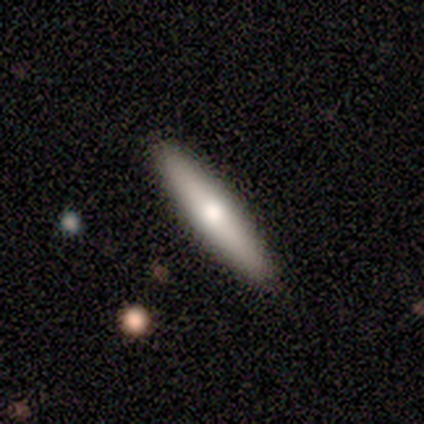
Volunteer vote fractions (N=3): A smooth galaxy with no disk features (67%) that is in between round and cigar-shaped (50%, tied with cigar-shaped).

Vote fractions:
- Smooth or featured? smooth: 67% / featured or disk: 33% / star or artifact: 0%
- How rounded? in between: 50% (tied) / cigar-shaped: 50% (tied) / round: 0%
- Merging? none: 100% / minor disturbance: 0% / major disturbance: 0% / merger: 0%